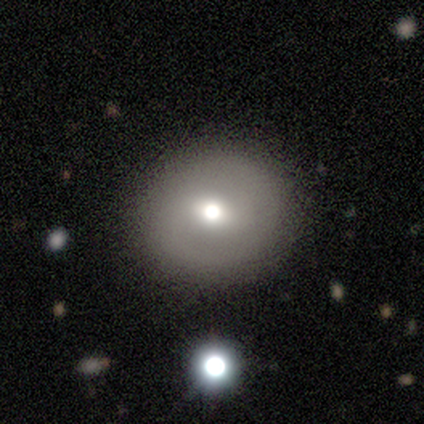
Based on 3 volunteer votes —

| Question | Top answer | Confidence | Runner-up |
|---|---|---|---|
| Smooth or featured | smooth | 33% | tied: featured or disk (33%), star or artifact (33%) |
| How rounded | round | 100% | — |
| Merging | none | 100% | — |